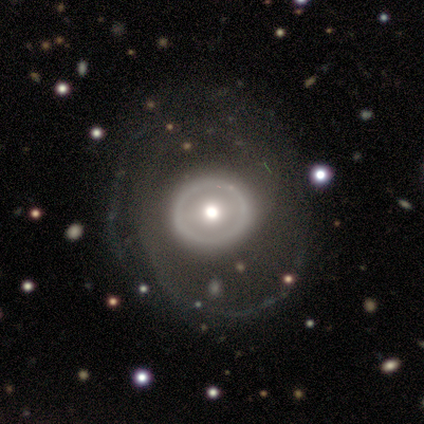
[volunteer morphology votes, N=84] A featured or disk galaxy (75%) with no bar (81%), no spiral arms (54%) and a moderate central bulge (71%). Merging: none (56%).